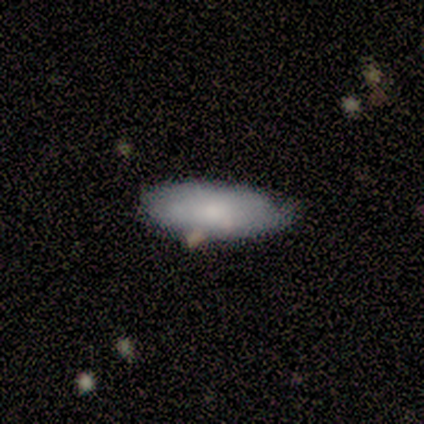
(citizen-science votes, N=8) smooth_or_featured: smooth (p=0.88) [alt: featured or disk p=0.12]
how_rounded: in between (p=0.71) [alt: cigar-shaped p=0.29]
merging: none (p=0.75) [alt: minor disturbance p=0.25]